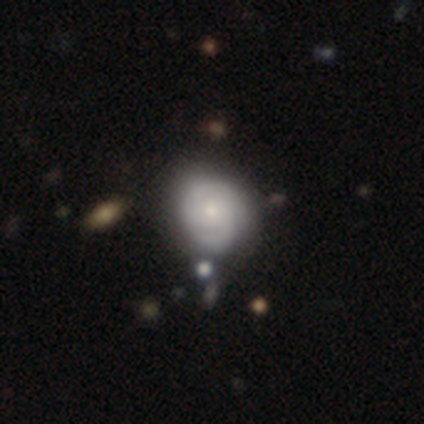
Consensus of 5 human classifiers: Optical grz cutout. It shows a smooth galaxy with no disk features (40%, tied with featured or disk) that is round (50%, tied with in between). Merging: none (75%).